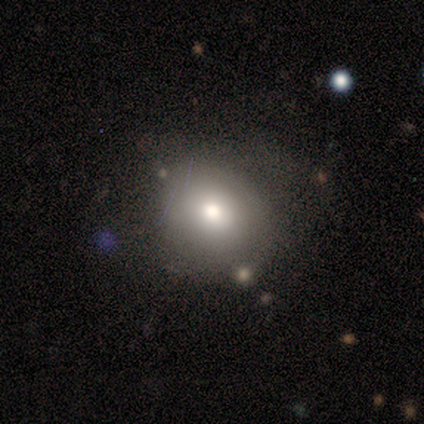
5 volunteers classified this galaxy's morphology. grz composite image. It shows a smooth galaxy with no disk features (80%) that is round (50%, tied with in between). Merging: minor disturbance (60%).